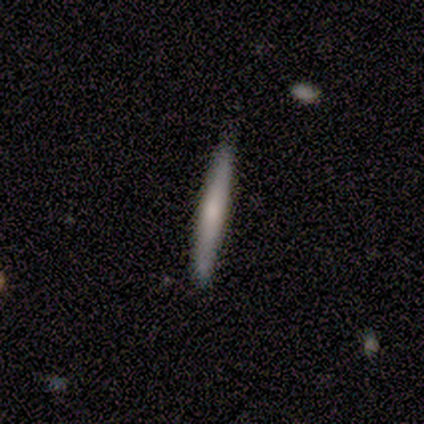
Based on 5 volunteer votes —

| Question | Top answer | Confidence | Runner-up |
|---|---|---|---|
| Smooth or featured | smooth | 60% | featured or disk (40%) |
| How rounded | cigar-shaped | 100% | — |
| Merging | none | 100% | — |